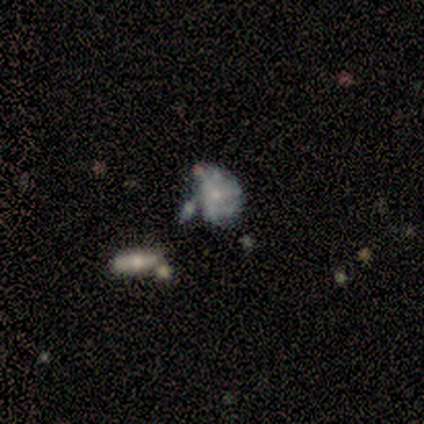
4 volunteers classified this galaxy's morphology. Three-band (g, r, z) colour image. It shows a star or artifact, not a galaxy (50%).